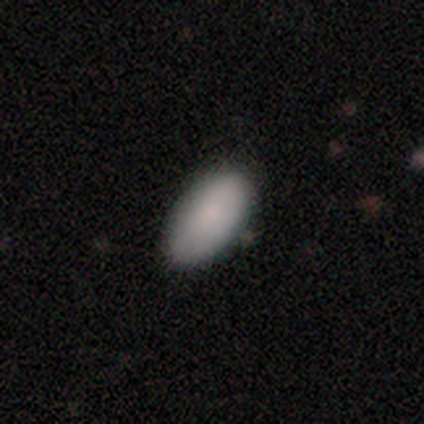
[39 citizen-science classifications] This is clearly a smooth galaxy (90%). How rounded: clearly in between (97%). Merging: likely none (76%).